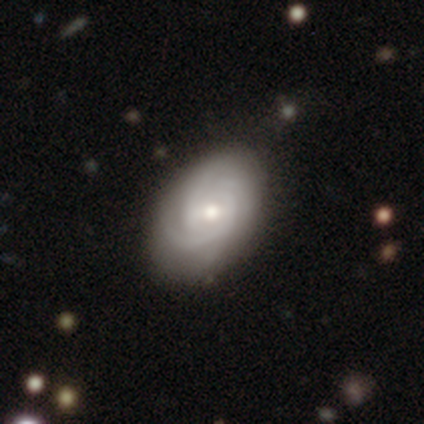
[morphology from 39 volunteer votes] This is clearly a featured or disk galaxy (90%). It is clearly not viewed edge-on (100%). Bar: likely weak (63%). Spiral arm pattern: clearly yes (97%). Spiral arm count: marginally 3 (44%). Spiral winding: likely tight (71%). Central bulge: likely moderate (71%). Merging: possibly none (49%).